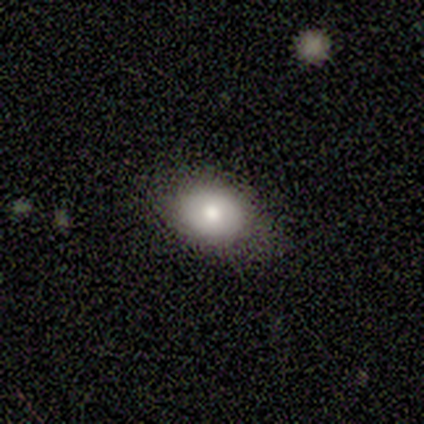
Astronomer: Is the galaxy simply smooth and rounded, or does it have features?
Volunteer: smooth — 62%.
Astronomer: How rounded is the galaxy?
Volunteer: in between — 62%.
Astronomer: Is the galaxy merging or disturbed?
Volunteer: none — 83%.